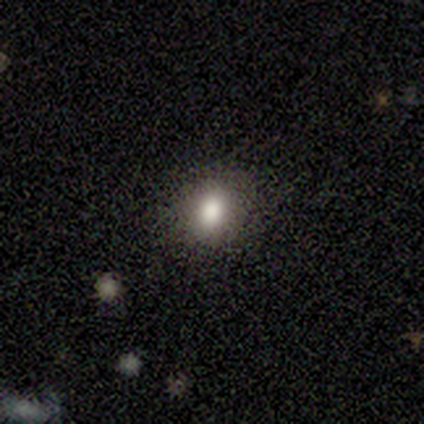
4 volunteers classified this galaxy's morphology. Overall: smooth (50%; featured or disk 25%). How rounded: round (50%, tied with in between). Merging: none (67%; major disturbance 33%).